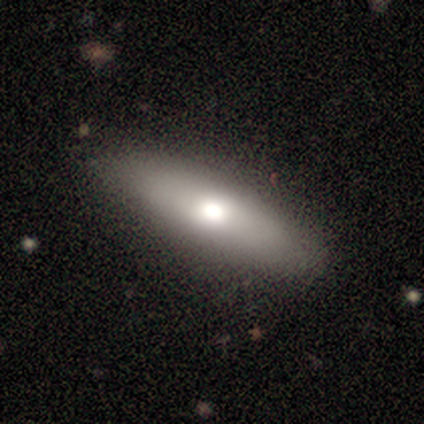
Morphology: type=smooth (80%); roundness=cigar-shaped (75%); merging=none (80%).